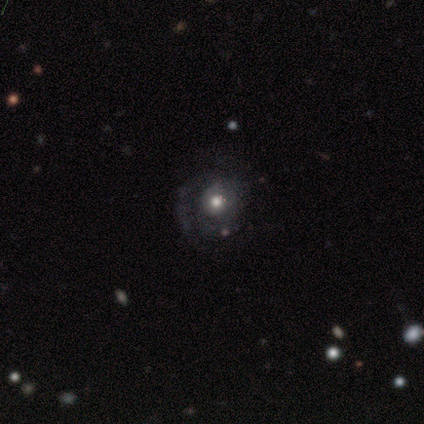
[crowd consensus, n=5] Smooth or featured: featured or disk — 80% (smooth — 20%)
Edge-on disk: no — 100%
Bar: no — 100%
Spiral arms: yes — 100%
Spiral winding: tight — 50% (medium — 25%)
Spiral arm count: 1 — 50% (2 — 25%)
Bulge size: moderate — 100%
Merging: none — 60% (minor disturbance — 20%)